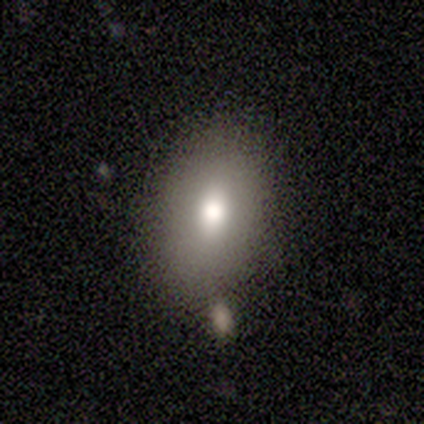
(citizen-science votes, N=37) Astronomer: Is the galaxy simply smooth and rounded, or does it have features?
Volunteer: smooth — 73%.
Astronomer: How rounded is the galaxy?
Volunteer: in between — 74%.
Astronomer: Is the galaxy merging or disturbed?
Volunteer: none — 74%.